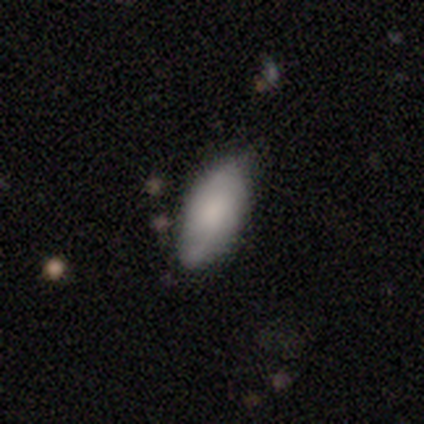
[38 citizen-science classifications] smooth_or_featured: smooth (p=0.71) [alt: featured or disk p=0.21]
how_rounded: in between (p=0.85) [alt: cigar-shaped p=0.15]
merging: none (p=0.51) [alt: minor disturbance p=0.37]